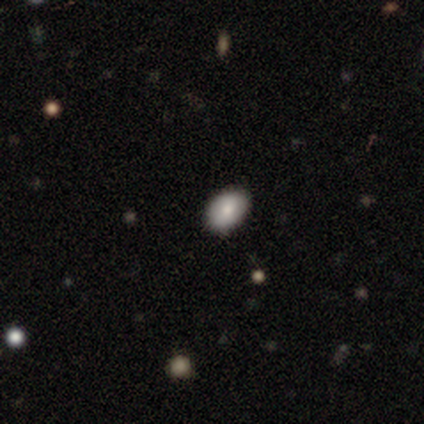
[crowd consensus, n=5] Smooth or featured? smooth (80%)
How rounded? in between (100%)
Merging? none (75%)